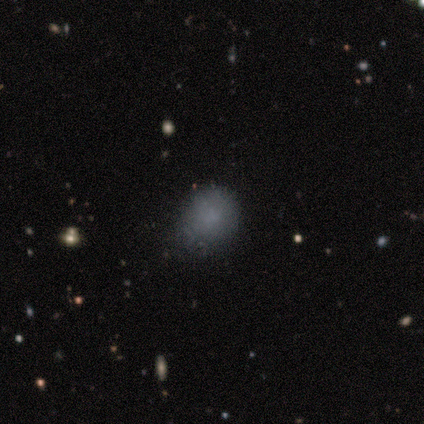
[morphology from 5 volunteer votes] Smooth or featured?
  - smooth: 60% *
  - star or artifact: 40%
  - featured or disk: 0%
How rounded?
  - round: 100% *
  - in between: 0%
  - cigar-shaped: 0%
Merging?
  - none: 67% *
  - minor disturbance: 33%
  - major disturbance: 0%
  - merger: 0%